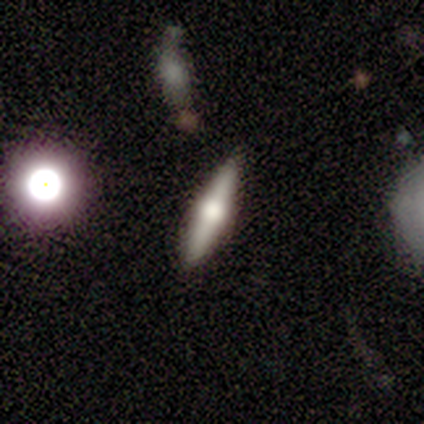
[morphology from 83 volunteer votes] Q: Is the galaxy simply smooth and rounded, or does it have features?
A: featured or disk — 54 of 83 (65%).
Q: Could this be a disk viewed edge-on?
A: yes — 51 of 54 (94%).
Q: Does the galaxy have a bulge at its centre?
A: rounded — 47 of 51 (92%).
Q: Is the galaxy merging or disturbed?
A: none — 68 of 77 (88%).